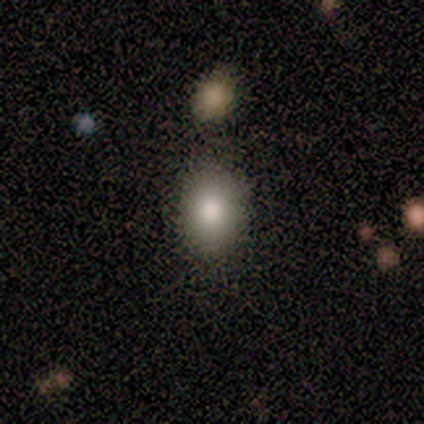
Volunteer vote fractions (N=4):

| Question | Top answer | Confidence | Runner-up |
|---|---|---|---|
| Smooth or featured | smooth | 100% | — |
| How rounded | in between | 75% | round (25%) |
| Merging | none | 75% | merger (25%) |